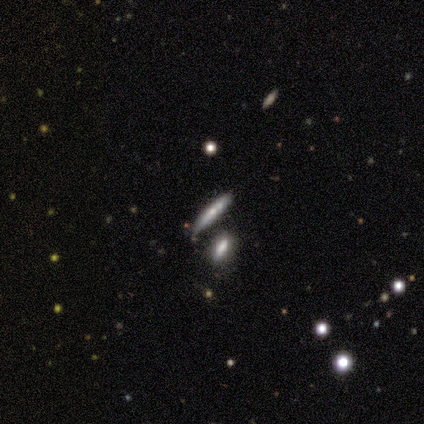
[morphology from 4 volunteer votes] A smooth galaxy with no disk features (50%) that is cigar-shaped (100%).

Vote fractions:
- Smooth or featured? smooth: 50% / featured or disk: 25% / star or artifact: 25%
- How rounded? cigar-shaped: 100% / round: 0% / in between: 0%
- Merging? none: 100% / minor disturbance: 0% / major disturbance: 0% / merger: 0%